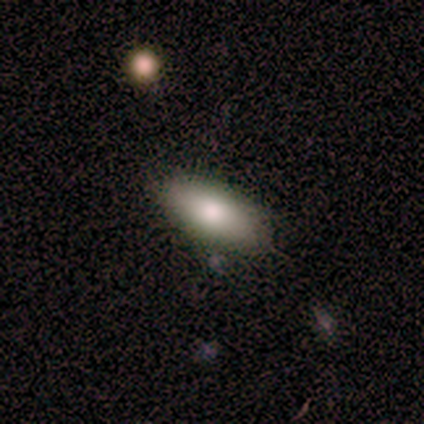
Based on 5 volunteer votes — Morphology: type=featured or disk (60%); edge-on=no (67%); bar=no (100%); spiral arms=no (100%); bulge=large (50%, tied with moderate); merging=none (100%).